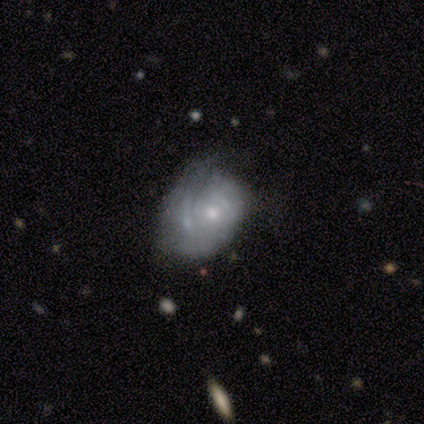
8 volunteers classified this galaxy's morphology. Overall: featured or disk (62%; smooth 38%). Edge-on disk: no (60%; yes 40%). Bar: no (67%; strong 33%). Spiral arms: no (67%; yes 33%). Bulge size: small (67%; large 33%). Merging: major disturbance (50%; none 25%).